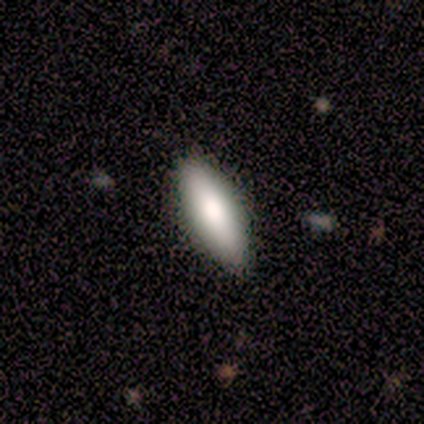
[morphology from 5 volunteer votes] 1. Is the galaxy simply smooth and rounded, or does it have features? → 100% smooth, 0% featured or disk, 0% star or artifact.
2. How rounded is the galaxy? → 60% in between, 40% cigar-shaped, 0% round.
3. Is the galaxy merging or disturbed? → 100% none, 0% minor disturbance, 0% major disturbance, 0% merger.